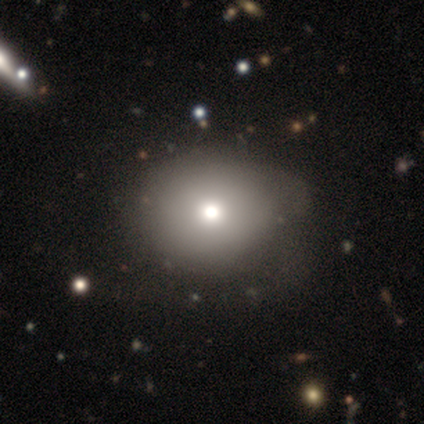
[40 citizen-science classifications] smooth-or-featured: smooth: 70% | featured or disk: 18% | star or artifact: 12%
  how-rounded: round: 79% | in between: 21% | cigar-shaped: 0%
  merging: none: 51% | minor disturbance: 29% | major disturbance: 20% | merger: 0%